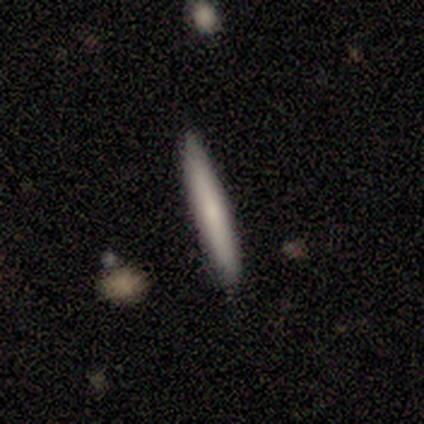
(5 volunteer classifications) Morphology: type=smooth (60%); roundness=cigar-shaped (100%); merging=none (100%).